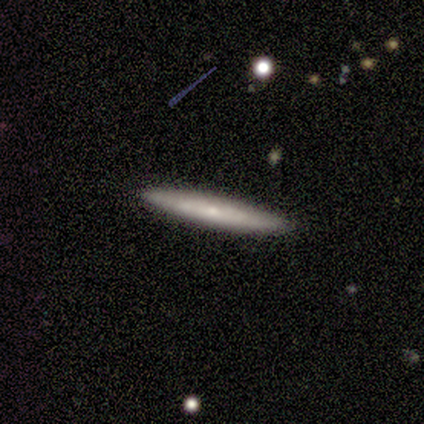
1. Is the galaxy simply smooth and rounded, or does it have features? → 60% smooth, 40% featured or disk, 0% star or artifact.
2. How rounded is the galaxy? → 100% cigar-shaped, 0% round, 0% in between.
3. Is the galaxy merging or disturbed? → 80% none, 20% merger, 0% minor disturbance, 0% major disturbance.